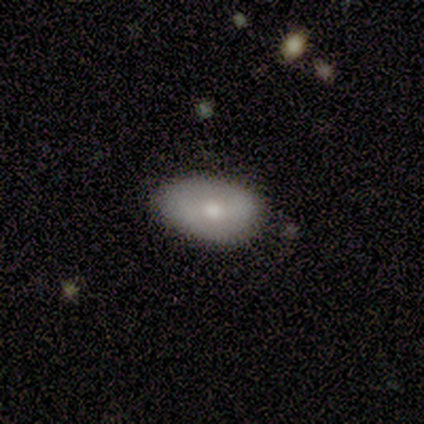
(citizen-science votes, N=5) Q: Smooth or featured?
A: smooth (100%)
Q: How rounded?
A: in between (80%); runner-up: round (20%)
Q: Merging?
A: none (80%); runner-up: minor disturbance (20%)